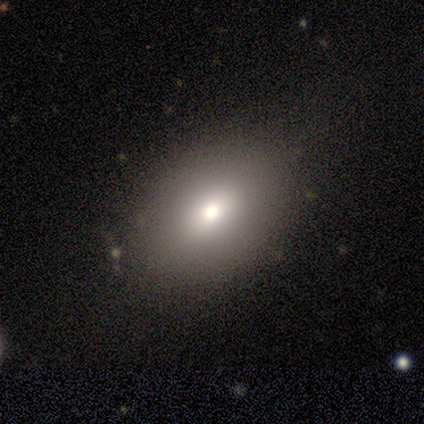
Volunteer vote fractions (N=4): Smooth or featured? smooth (50%)
How rounded? in between (100%)
Merging? none (100%)